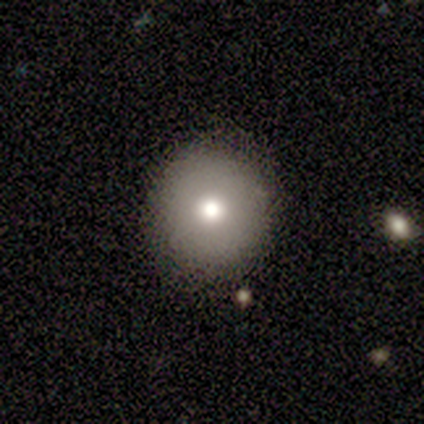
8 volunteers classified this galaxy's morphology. Overall: smooth (38%, tied with featured or disk). How rounded: round (67%; in between 33%). Merging: none (100%).